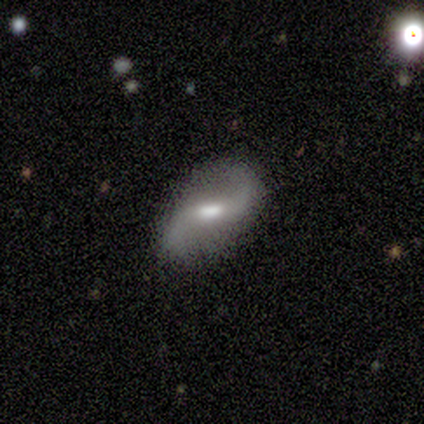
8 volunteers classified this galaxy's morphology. This is clearly a featured or disk galaxy (88%). It is clearly not viewed edge-on (100%). Bar: clearly weak (86%). Spiral arm pattern: clearly yes (100%). Spiral arm count: clearly 2 (100%). Spiral winding: clearly loose (100%). Central bulge: clearly moderate (86%). Merging: clearly none (100%).